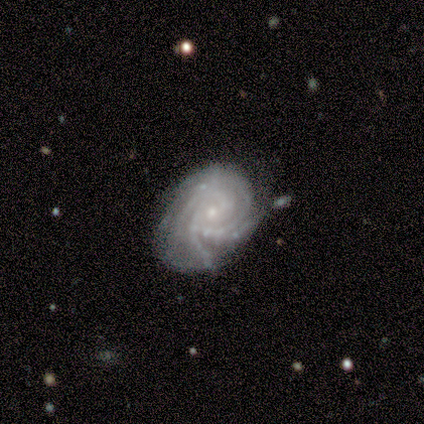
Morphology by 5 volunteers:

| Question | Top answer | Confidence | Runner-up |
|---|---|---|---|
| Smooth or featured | featured or disk | 80% | smooth (20%) |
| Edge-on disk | no | 100% | — |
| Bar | no | 100% | — |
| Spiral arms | yes | 100% | — |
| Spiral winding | tight | 100% | — |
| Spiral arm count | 4 | 100% | — |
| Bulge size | small | 100% | — |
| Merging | none | 80% | merger (20%) |